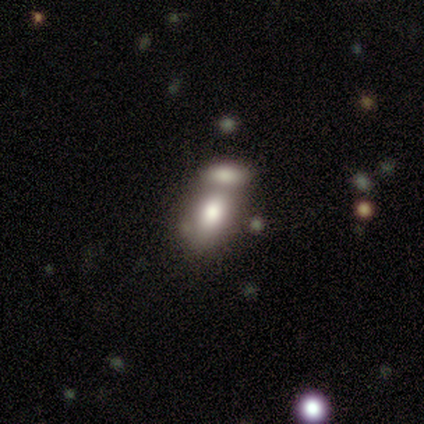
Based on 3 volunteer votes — Overall: smooth (100%). How rounded: in between (100%). Merging: merger (67%; none 33%).